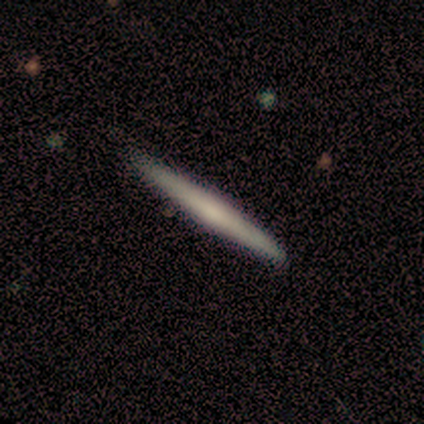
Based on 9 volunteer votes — smooth 67%, featured or disk 22%, star or artifact 11%. Down the decision tree: how rounded — cigar-shaped (100%); merging — none (88%).